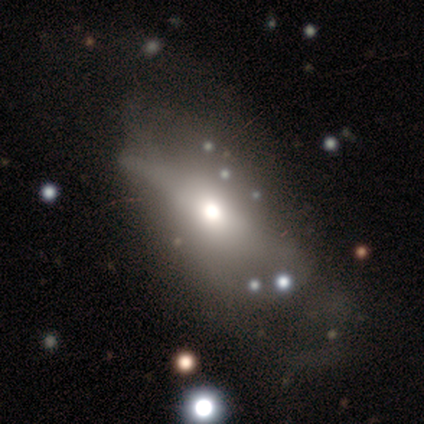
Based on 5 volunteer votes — Smooth or featured? featured or disk (60%)
Edge-on disk? yes (67%)
Edge-on bulge? boxy (50%, tied with rounded)
Merging? minor disturbance (40%, tied with major disturbance)